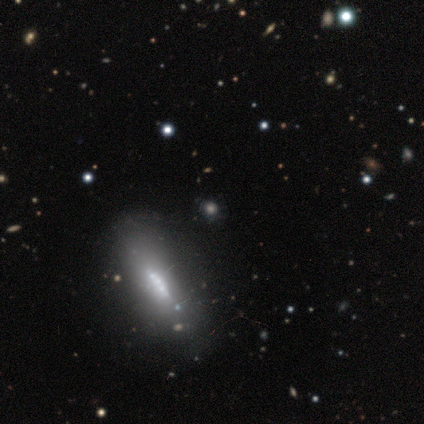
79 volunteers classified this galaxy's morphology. Smooth or featured?
  - featured or disk: 46% *
  - smooth: 44%
  - star or artifact: 10%
Edge-on disk?
  - no: 53% *
  - yes: 47%
Bar?
  - no: 63% *
  - weak: 26%
  - strong: 11%
Spiral arms?
  - no: 68% *
  - yes: 32%
Bulge size?
  - small: 32% *
  - large: 26%
  - moderate: 21%
  - dominant: 11%
  - none: 11%
Merging?
  - none: 68% *
  - minor disturbance: 17%
  - merger: 8%
  - major disturbance: 7%